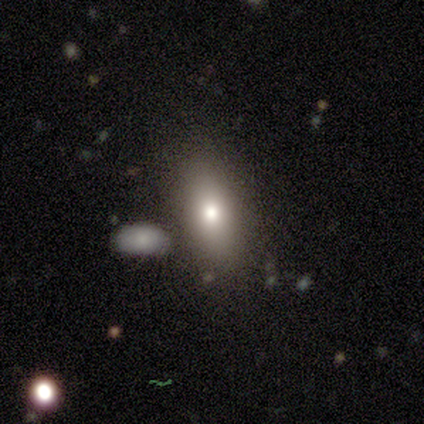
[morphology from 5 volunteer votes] type=smooth (60%); roundness=in between (67%); merging=none (80%).